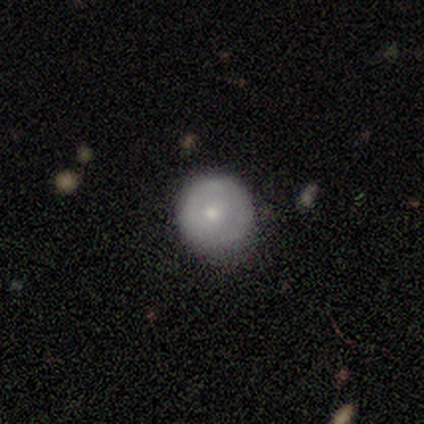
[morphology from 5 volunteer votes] This appears to be a smooth galaxy with no disk features (60%) that is round (100%). Merging: minor disturbance (60%).